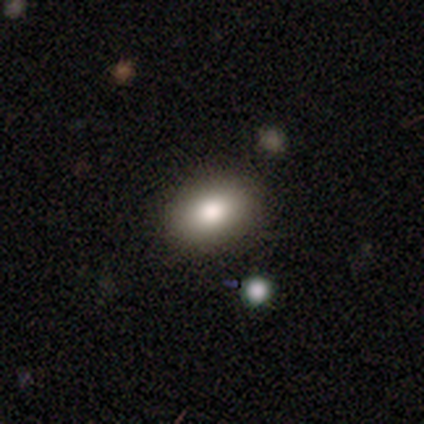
Q: Smooth or featured?
A: smooth (60%); runner-up: featured or disk (20%)
Q: How rounded?
A: in between (100%)
Q: Merging?
A: none (100%)